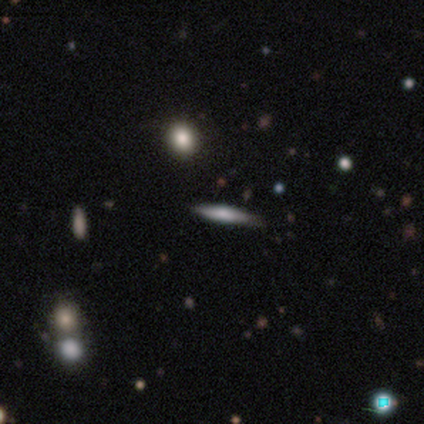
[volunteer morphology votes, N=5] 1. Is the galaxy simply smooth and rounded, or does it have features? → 60% smooth, 40% featured or disk, 0% star or artifact.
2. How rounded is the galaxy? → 67% cigar-shaped, 33% in between, 0% round.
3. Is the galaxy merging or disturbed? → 80% none, 20% merger, 0% minor disturbance, 0% major disturbance.